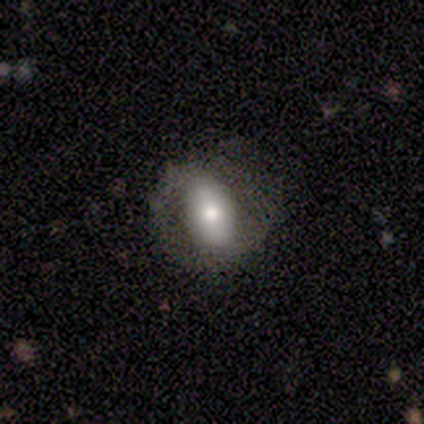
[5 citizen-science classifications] This is clearly a featured or disk galaxy (80%). It is likely not viewed edge-on (75%). Bar: clearly strong (100%). Spiral arm pattern: likely yes (67%). Spiral arm count: clearly 2 (100%). Spiral winding: possibly medium (50%, tied with loose). Central bulge: likely moderate (67%). Merging: clearly none (80%).